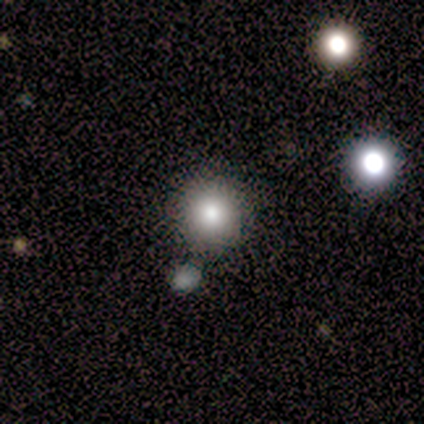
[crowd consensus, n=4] A smooth galaxy with no disk features (75%) that is round (100%). Merging: none (67%).